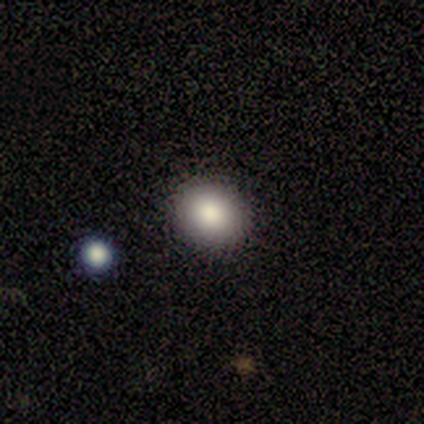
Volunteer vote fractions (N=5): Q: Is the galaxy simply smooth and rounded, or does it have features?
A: smooth — 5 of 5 (100%).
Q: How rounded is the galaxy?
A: in between — 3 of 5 (60%).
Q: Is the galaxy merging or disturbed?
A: none — 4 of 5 (80%).